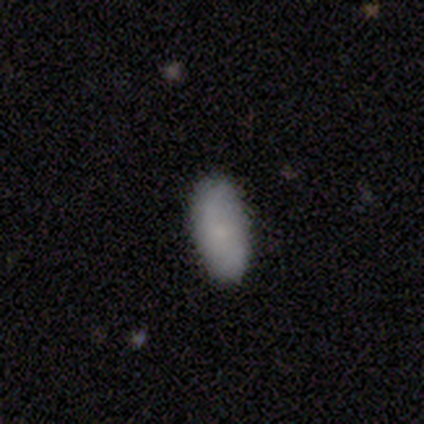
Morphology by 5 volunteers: A smooth galaxy with no disk features (100%) that is in between round and cigar-shaped (100%).

Vote fractions:
- Smooth or featured? smooth: 100% / featured or disk: 0% / star or artifact: 0%
- How rounded? in between: 100% / round: 0% / cigar-shaped: 0%
- Merging? none: 80% / minor disturbance: 20% / major disturbance: 0% / merger: 0%